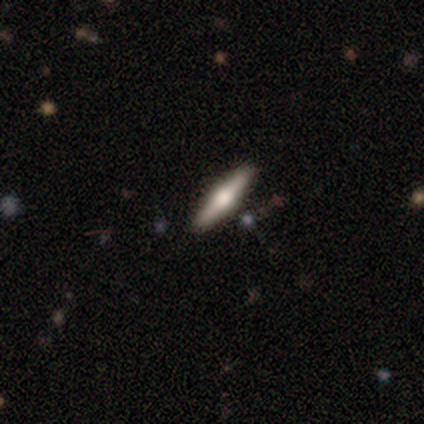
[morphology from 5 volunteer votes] Smooth or featured?
  - featured or disk: 80% *
  - smooth: 20%
  - star or artifact: 0%
Edge-on disk?
  - yes: 75% *
  - no: 25%
Edge-on bulge?
  - rounded: 100% *
  - boxy: 0%
  - none: 0%
Merging?
  - none: 100% *
  - minor disturbance: 0%
  - major disturbance: 0%
  - merger: 0%